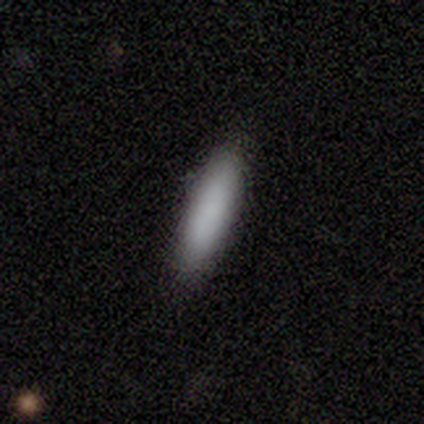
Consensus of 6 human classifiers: Morphology: type=smooth (100%); roundness=cigar-shaped (67%); merging=none (100%).